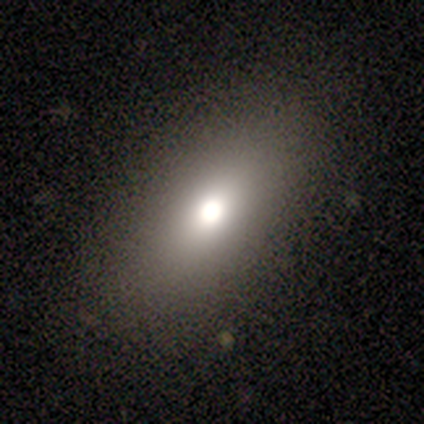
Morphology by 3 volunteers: Smooth or featured: star or artifact — 67% (smooth — 33%)